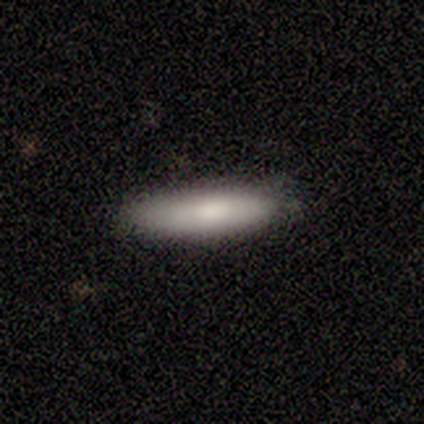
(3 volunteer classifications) smooth-or-featured: smooth: 67% | featured or disk: 33% | star or artifact: 0%
  how-rounded: in between: 50% (tied) | cigar-shaped: 50% (tied) | round: 0%
  merging: none: 100% | minor disturbance: 0% | major disturbance: 0% | merger: 0%